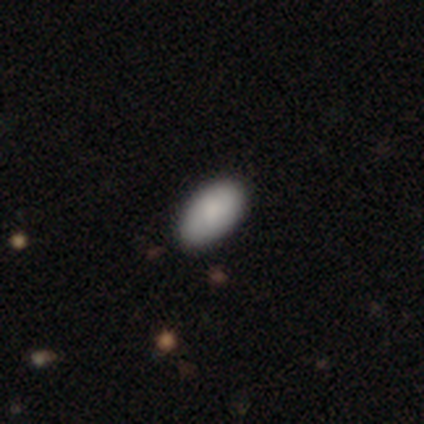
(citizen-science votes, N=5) Smooth or featured? 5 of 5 (100%) said smooth. How rounded? 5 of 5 (100%) said in between. Merging? 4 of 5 (80%) said none.